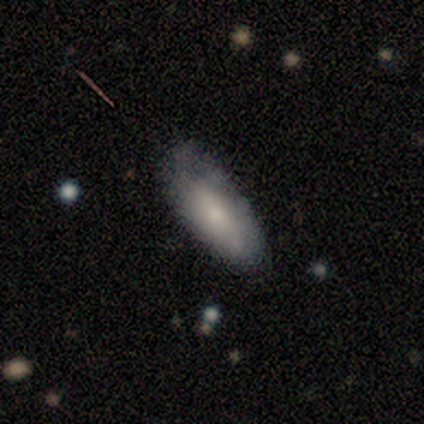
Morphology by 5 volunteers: Q: Smooth or featured?
A: smooth (80%); runner-up: featured or disk (20%)
Q: How rounded?
A: in between (50%); tied with: cigar-shaped (50%)
Q: Merging?
A: none (40%); tied with: minor disturbance (40%)